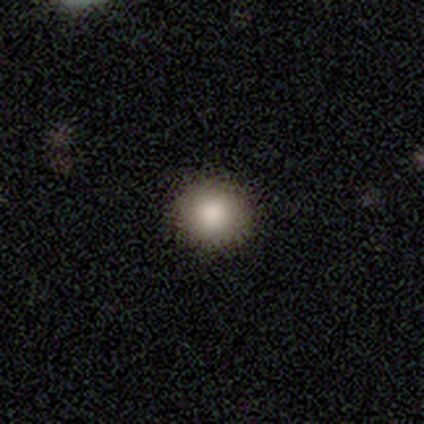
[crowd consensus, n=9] Overall: smooth (89%). How rounded: round (100%). Merging: none (100%).